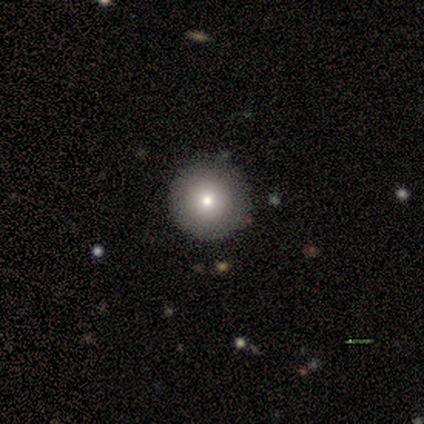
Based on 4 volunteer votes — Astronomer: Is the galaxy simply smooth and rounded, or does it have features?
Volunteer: smooth — 100%.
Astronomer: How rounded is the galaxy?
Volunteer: round — 100%.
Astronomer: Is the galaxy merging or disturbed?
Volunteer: none — 100%.